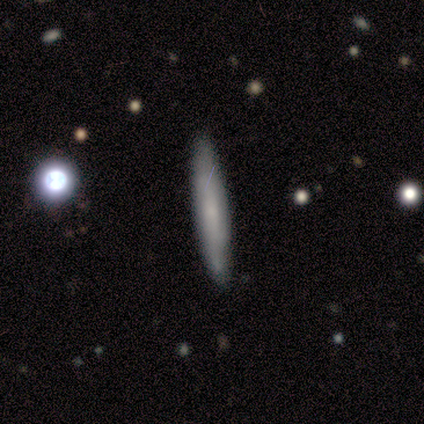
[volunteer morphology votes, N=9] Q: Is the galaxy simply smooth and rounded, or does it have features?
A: smooth — 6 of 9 (67%).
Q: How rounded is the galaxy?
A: cigar-shaped — 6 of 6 (100%).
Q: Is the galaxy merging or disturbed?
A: none — 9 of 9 (100%).